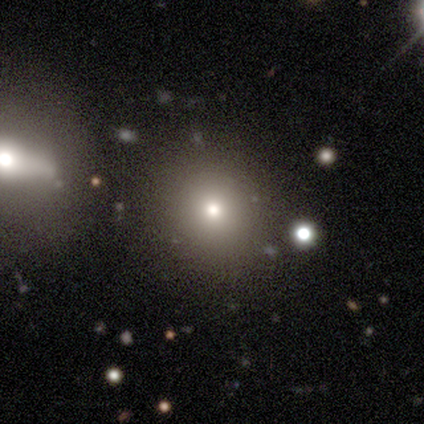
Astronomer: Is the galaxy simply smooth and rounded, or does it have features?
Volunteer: smooth — 100%.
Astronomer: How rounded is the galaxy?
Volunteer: round — 100%.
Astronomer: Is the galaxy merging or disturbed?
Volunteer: none — 100%.